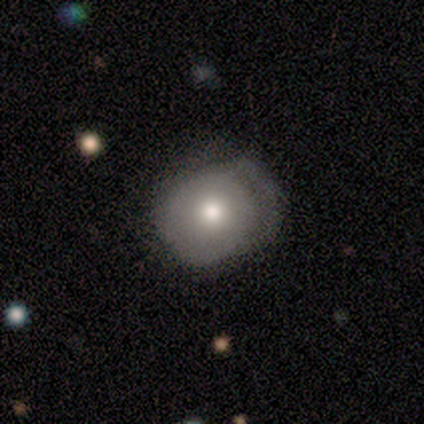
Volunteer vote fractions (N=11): Smooth or featured: featured or disk — 55% (smooth — 45%)
Edge-on disk: no — 100%
Bar: no — 83% (weak — 17%)
Spiral arms: yes — 50% (tied with no — 50%)
Spiral winding: tight — 100%
Spiral arm count: 1 — 33% (tied with 2 — 33%; can't tell — 33%)
Bulge size: moderate — 83% (large — 17%)
Merging: none — 64% (minor disturbance — 18%)